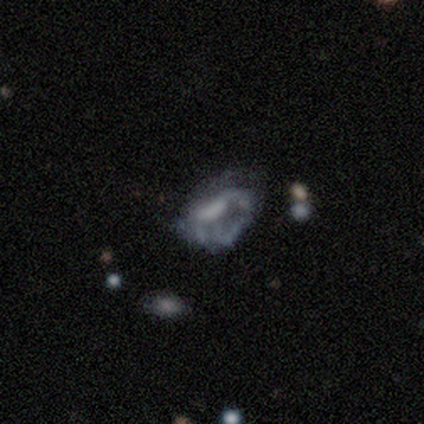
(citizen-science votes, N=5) Overall: featured or disk (80%). Edge-on disk: no (100%). Bar: no (100%). Spiral arms: no (100%). Bulge size: none (75%). Merging: minor disturbance (50%, tied with major disturbance).